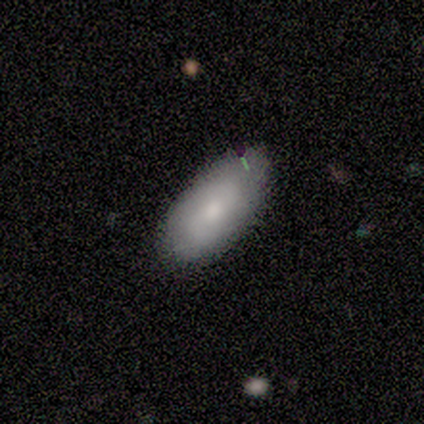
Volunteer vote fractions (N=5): A smooth galaxy with no disk features (80%) that is in between round and cigar-shaped (100%).

Vote fractions:
- Smooth or featured? smooth: 80% / featured or disk: 20% / star or artifact: 0%
- How rounded? in between: 100% / round: 0% / cigar-shaped: 0%
- Merging? none: 80% / minor disturbance: 20% / major disturbance: 0% / merger: 0%